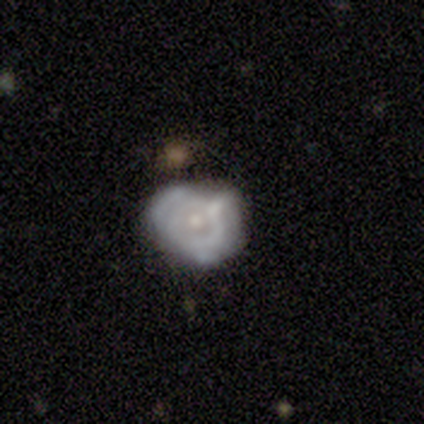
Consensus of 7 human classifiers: Smooth or featured: featured or disk — 100%
Edge-on disk: no — 100%
Bar: no — 100%
Spiral arms: no — 57% (yes — 43%)
Bulge size: small — 71% (moderate — 29%)
Merging: none — 71% (minor disturbance — 29%)